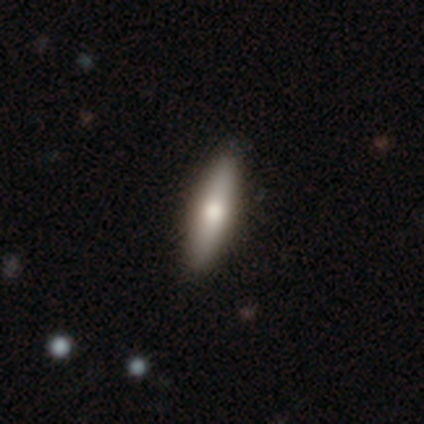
Smooth or featured?
  - smooth: 59% *
  - featured or disk: 37%
  - star or artifact: 5%
How rounded?
  - cigar-shaped: 83% *
  - in between: 17%
  - round: 0%
Merging?
  - none: 59% *
  - minor disturbance: 5%
  - merger: 5%
  - major disturbance: 0%